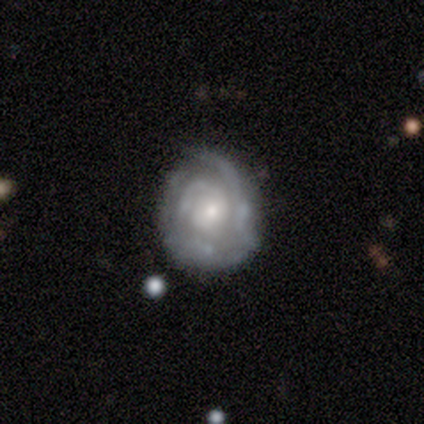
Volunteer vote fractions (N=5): This is likely a featured or disk galaxy (60%). It is clearly not viewed edge-on (100%). Bar: likely no (67%). Spiral arm pattern: clearly yes (100%). Spiral arm count: marginally 2 (33%, tied with 3 and can't tell). Spiral winding: likely medium (67%). Central bulge: likely small (67%). Merging: clearly none (80%).